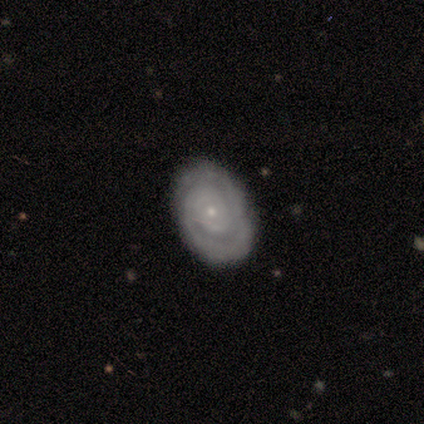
Smooth or featured?
  - featured or disk: 100% *
  - smooth: 0%
  - star or artifact: 0%
Edge-on disk?
  - no: 100% *
  - yes: 0%
Bar?
  - no: 100% *
  - strong: 0%
  - weak: 0%
Spiral arms?
  - yes: 75% *
  - no: 25%
Spiral winding?
  - tight: 100% *
  - medium: 0%
  - loose: 0%
Spiral arm count?
  - 1: 100% *
  - 2: 0%
  - 3: 0%
  - 4: 0%
  - more than 4: 0%
  - can't tell: 0%
Bulge size?
  - small: 100% *
  - dominant: 0%
  - large: 0%
  - moderate: 0%
  - none: 0%
Merging?
  - none: 75% *
  - major disturbance: 25%
  - minor disturbance: 0%
  - merger: 0%